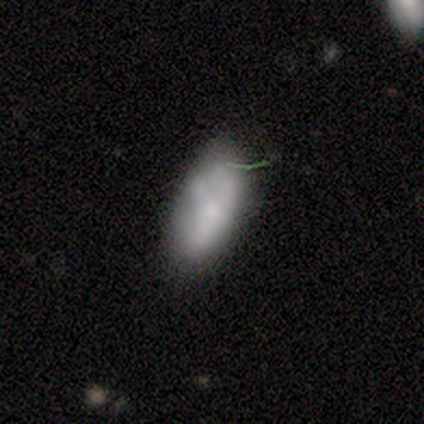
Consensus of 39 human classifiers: A smooth galaxy with no disk features (59%) that is in between round and cigar-shaped (96%). Merging: none (57%).